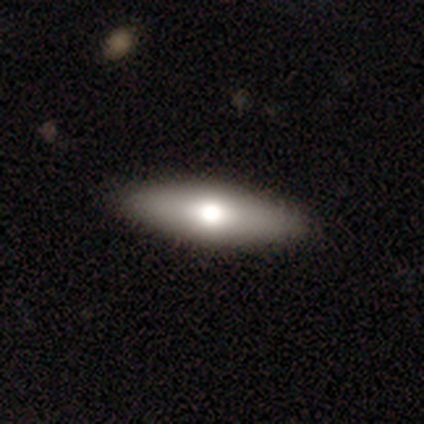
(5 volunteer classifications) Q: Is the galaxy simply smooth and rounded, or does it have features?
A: smooth — 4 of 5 (80%).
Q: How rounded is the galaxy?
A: cigar-shaped — 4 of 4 (100%).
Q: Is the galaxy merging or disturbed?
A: none — 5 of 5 (100%).